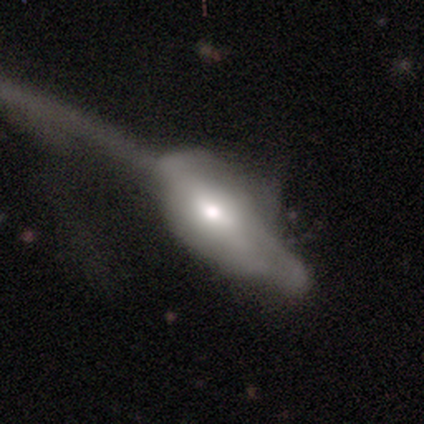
This is clearly a smooth galaxy (100%). How rounded: clearly in between (100%). Merging: likely major disturbance (60%).